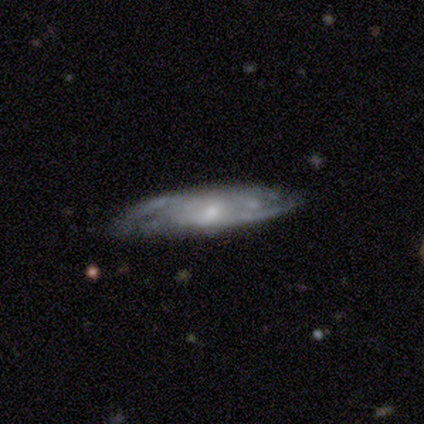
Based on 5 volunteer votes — Overall: featured or disk (80%). Edge-on disk: yes (50%, tied with no). Edge-on bulge: rounded (100%). Merging: none (60%; minor disturbance 40%).